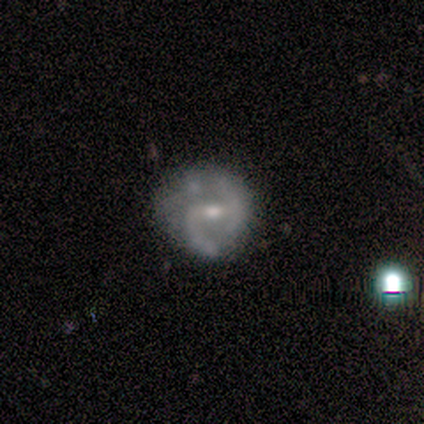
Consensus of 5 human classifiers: Volunteers were most divided on "merging": none: 60%, minor disturbance: 40%, major disturbance: 0%, merger: 0%. More confident: edge-on disk — no (100%); bar — weak (100%); spiral arms — yes (100%); smooth or featured — featured or disk (80%); spiral winding — medium (75%); spiral arm count — 2 (75%); bulge size — small (75%).